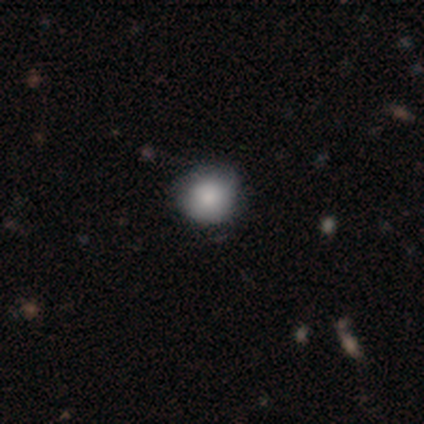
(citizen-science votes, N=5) Smooth or featured? 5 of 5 (100%) said smooth. How rounded? 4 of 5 (80%) said round. Merging? 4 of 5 (80%) said none.